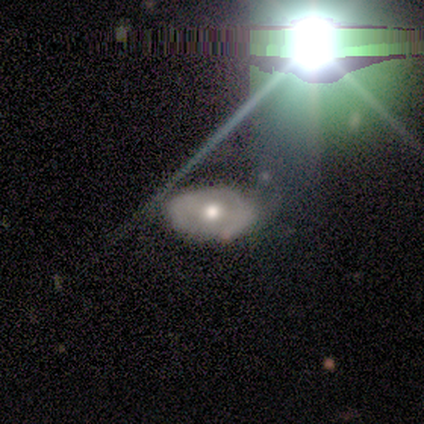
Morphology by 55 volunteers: Volunteers were most divided on "merging": none: 55%, minor disturbance: 30%, major disturbance: 13%, merger: 2%. More confident: edge-on disk — no (95%); spiral arms — no (71%); bulge size — moderate (69%); smooth or featured — featured or disk (67%); bar — no (54%).